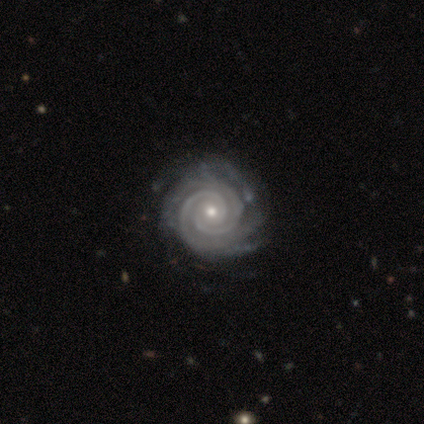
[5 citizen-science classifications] Overall: featured or disk (100%). Edge-on disk: no (100%). Bar: no (80%). Spiral arms: yes (100%). Spiral arm count: 2 (40%; 3 20%). Spiral winding: tight (100%). Bulge size: small (80%). Merging: none (80%).